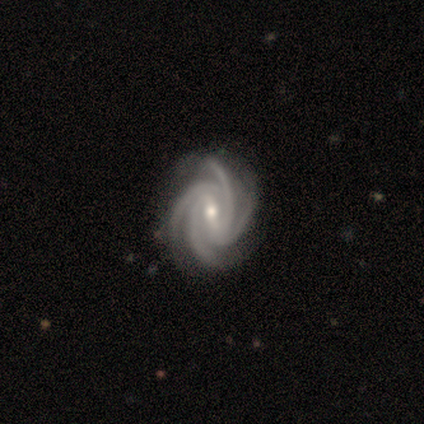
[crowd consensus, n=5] Smooth or featured? 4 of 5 (80%) said featured or disk. Edge-on disk? 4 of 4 (100%) said no. Bar? 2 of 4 (50%, tied with weak) said strong. Spiral arms? 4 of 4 (100%) said yes. Spiral winding? 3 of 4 (75%) said medium. Spiral arm count? 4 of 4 (100%) said 4. Bulge size? 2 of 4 (50%, tied with small) said moderate. Merging? 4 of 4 (100%) said none.